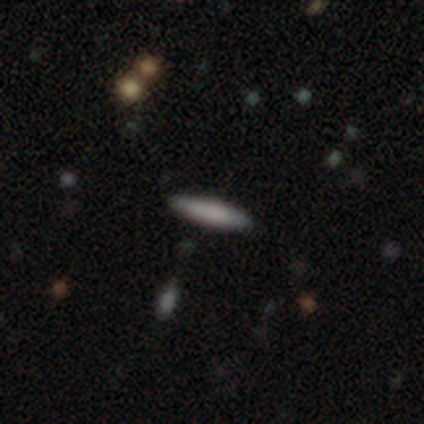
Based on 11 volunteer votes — Volunteers were most divided on "smooth or featured": smooth: 73%, featured or disk: 27%, star or artifact: 0%. More confident: how rounded — cigar-shaped (100%); merging — none (100%).